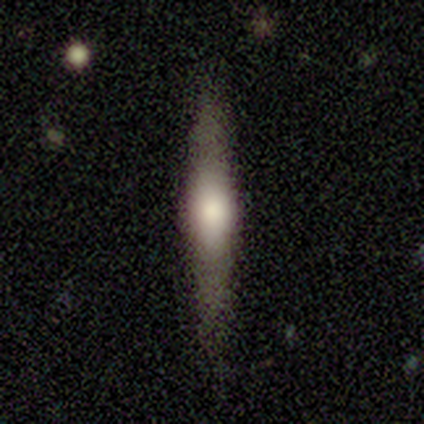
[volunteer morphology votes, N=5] A featured or disk galaxy (80%) viewed edge-on (100%) with a rounded central bulge (50%). Merging: none (100%).